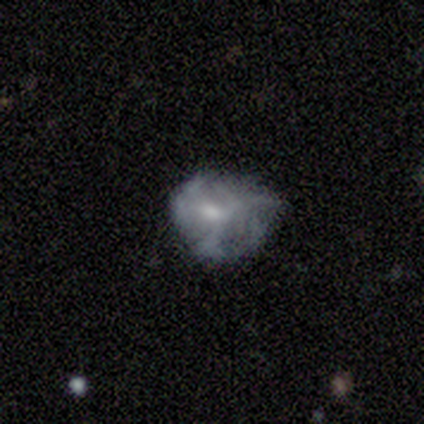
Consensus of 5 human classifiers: smooth-or-featured: featured or disk: 60% | smooth: 20% | star or artifact: 20%
  disk-edge-on: no: 100% | yes: 0%
    bar: weak: 100% | strong: 0% | no: 0%
    has-spiral-arms: yes: 100% | no: 0%
      spiral-winding: tight: 33% (tied) | medium: 33% (tied) | loose: 33% (tied)
      spiral-arm-count: 3: 33% (tied) | more than 4: 33% (tied) | can't tell: 33% (tied) | 1: 0% | 2: 0% | 4: 0%
    bulge-size: moderate: 100% | dominant: 0% | large: 0% | small: 0% | none: 0%
  merging: minor disturbance: 75% | none: 25% | major disturbance: 0% | merger: 0%